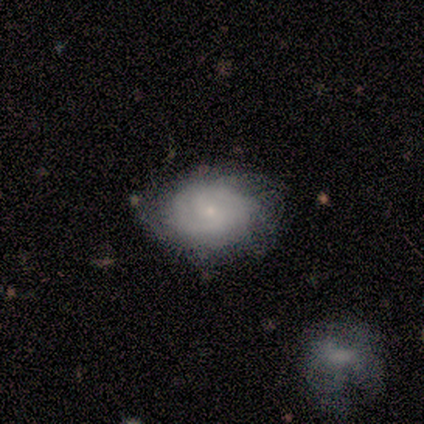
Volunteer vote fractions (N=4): smooth_or_featured: featured or disk (p=1.00)
disk_edge_on: no (p=1.00)
bar: no (p=0.75) [alt: weak p=0.25]
has_spiral_arms: yes (p=0.50) [tied with: no p=0.50]
spiral_winding: tight (p=0.50) [tied with: medium p=0.50]
spiral_arm_count: 2 (p=1.00)
bulge_size: small (p=1.00)
merging: none (p=1.00)